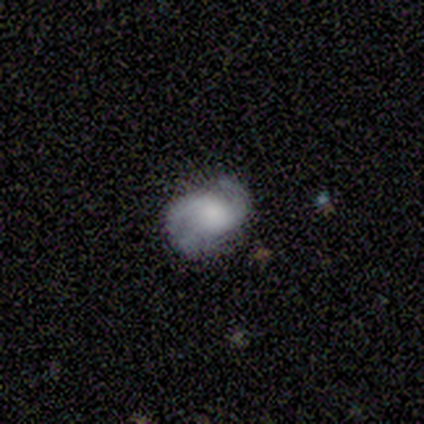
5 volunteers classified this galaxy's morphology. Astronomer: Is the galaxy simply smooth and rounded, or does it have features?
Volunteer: featured or disk — 80%.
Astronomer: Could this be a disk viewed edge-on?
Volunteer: no — 100%.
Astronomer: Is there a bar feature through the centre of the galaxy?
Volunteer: weak — 75%.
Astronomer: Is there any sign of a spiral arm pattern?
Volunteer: yes — 100%.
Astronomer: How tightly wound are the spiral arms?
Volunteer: tight — 50%.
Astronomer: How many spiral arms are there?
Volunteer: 2 — 75%.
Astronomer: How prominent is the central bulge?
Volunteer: none — 50%.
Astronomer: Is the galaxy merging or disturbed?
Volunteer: none — 50%.